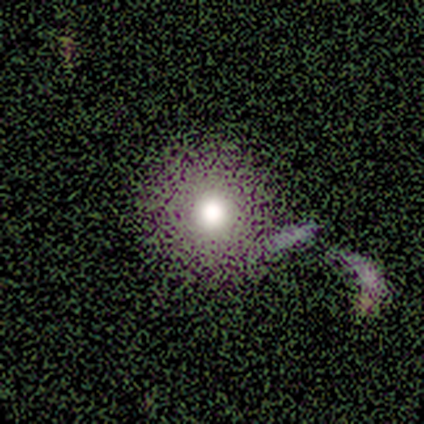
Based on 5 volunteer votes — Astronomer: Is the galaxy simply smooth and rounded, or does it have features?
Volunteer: smooth — 40%, tied with star or artifact at 40%.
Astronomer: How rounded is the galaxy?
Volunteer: round — 100%.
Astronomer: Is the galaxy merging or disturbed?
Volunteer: minor disturbance — 67%.